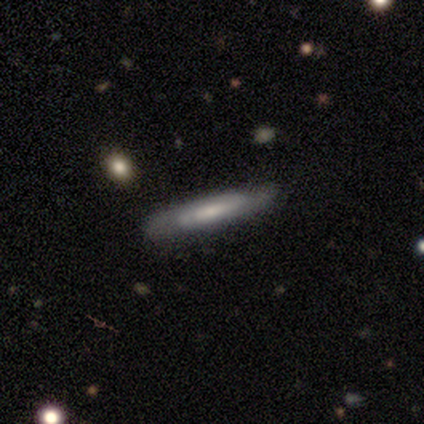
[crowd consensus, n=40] Morphology: type=featured or disk (55%); edge-on=yes (55%); edge-on bulge=none (50%); merging=none (73%).